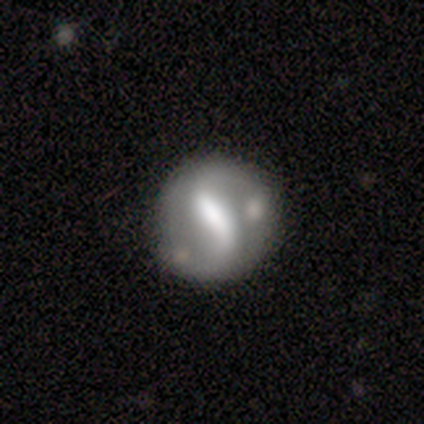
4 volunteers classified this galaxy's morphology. Smooth or featured?
  - featured or disk: 75% *
  - smooth: 25%
  - star or artifact: 0%
Edge-on disk?
  - no: 100% *
  - yes: 0%
Bar?
  - strong: 33% * (tied)
  - weak: 33% * (tied)
  - no: 33% * (tied)
Spiral arms?
  - yes: 67% *
  - no: 33%
Spiral winding?
  - loose: 100% *
  - tight: 0%
  - medium: 0%
Spiral arm count?
  - 2: 100% *
  - 1: 0%
  - 3: 0%
  - 4: 0%
  - more than 4: 0%
  - can't tell: 0%
Bulge size?
  - none: 67% *
  - moderate: 33%
  - dominant: 0%
  - large: 0%
  - small: 0%
Merging?
  - none: 25% * (tied)
  - minor disturbance: 25% * (tied)
  - major disturbance: 25% * (tied)
  - merger: 25% * (tied)